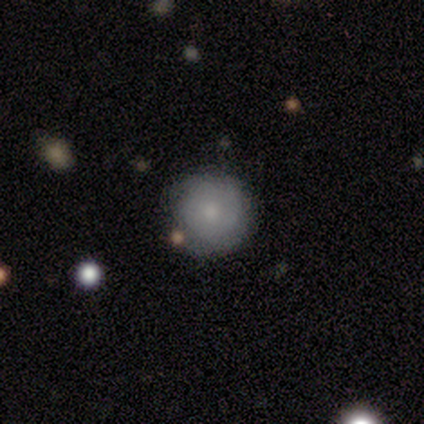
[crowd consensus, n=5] smooth 80%, featured or disk 20%, star or artifact 0%. Down the decision tree: how rounded — round (100%); merging — none (100%).